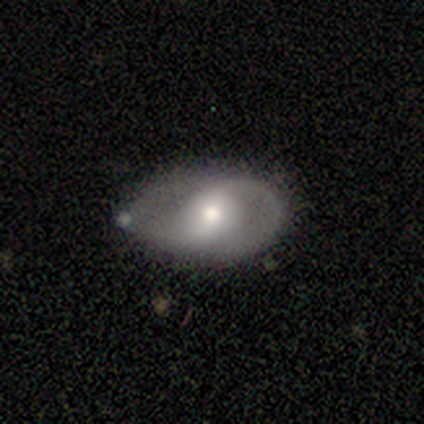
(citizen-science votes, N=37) Smooth or featured? 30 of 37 (81%) said featured or disk. Edge-on disk? 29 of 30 (97%) said no. Bar? 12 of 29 (41%) said no. Spiral arms? 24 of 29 (83%) said yes. Spiral winding? 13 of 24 (54%) said medium. Spiral arm count? 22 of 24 (92%) said 2. Bulge size? 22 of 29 (76%) said moderate. Merging? 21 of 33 (64%) said none.